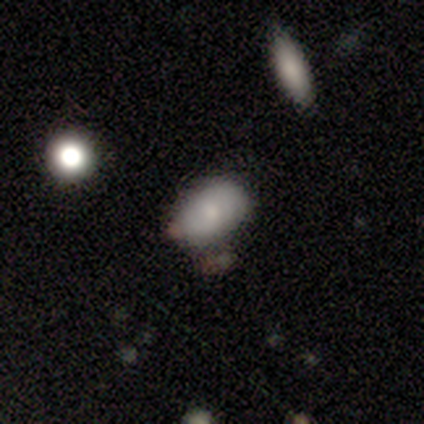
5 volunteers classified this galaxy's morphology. smooth_or_featured: smooth (p=0.80) [alt: featured or disk p=0.20]
how_rounded: in between (p=1.00)
merging: none (p=1.00)